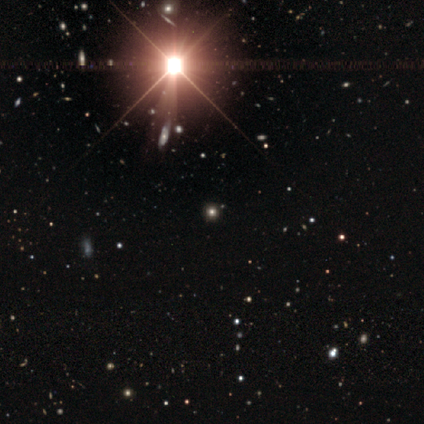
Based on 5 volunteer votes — smooth-or-featured: star or artifact: 60% | smooth: 40% | featured or disk: 0%